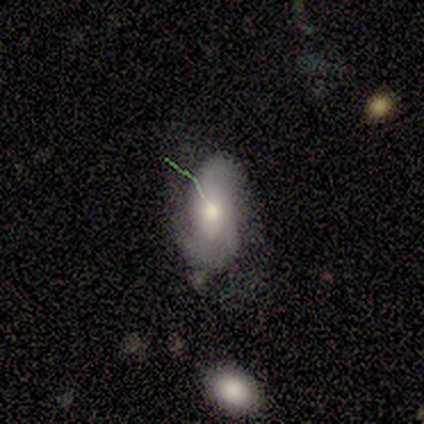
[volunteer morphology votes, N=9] Q: Smooth or featured?
A: featured or disk (78%); runner-up: smooth (22%)
Q: Edge-on disk?
A: no (100%)
Q: Bar?
A: no (71%); runner-up: weak (29%)
Q: Spiral arms?
A: yes (86%); runner-up: no (14%)
Q: Spiral winding?
A: medium (83%); runner-up: tight (17%)
Q: Spiral arm count?
A: 2 (67%); runner-up: can't tell (33%)
Q: Bulge size?
A: moderate (86%); runner-up: small (14%)
Q: Merging?
A: none (67%); runner-up: minor disturbance (22%)